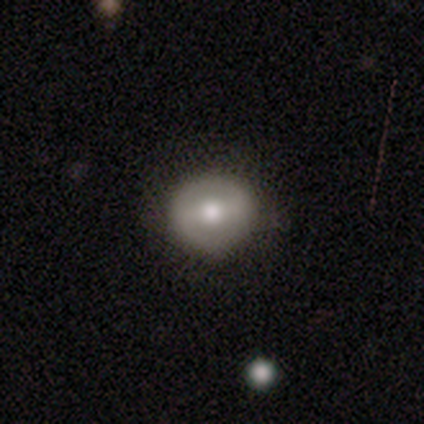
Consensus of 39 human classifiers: A featured or disk galaxy (56%) with a weak bar (38%, tied with no), no spiral arms (67%) and a moderate central bulge (81%). Merging: none (67%).